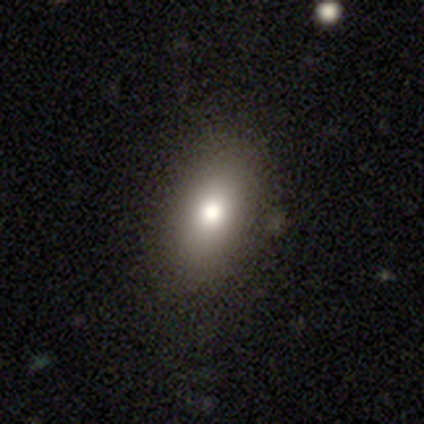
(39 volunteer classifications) Smooth or featured: smooth — 82% (featured or disk — 10%)
How rounded: in between — 81% (round — 9%)
Merging: none — 89% (minor disturbance — 8%)